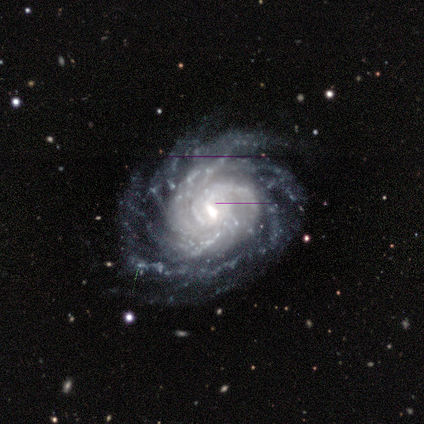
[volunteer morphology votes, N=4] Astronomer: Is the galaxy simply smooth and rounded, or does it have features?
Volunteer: featured or disk — 100%.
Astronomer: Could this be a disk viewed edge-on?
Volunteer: yes — 50%, tied with no at 50%.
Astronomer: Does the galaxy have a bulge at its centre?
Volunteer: boxy — 50%, tied with rounded at 50%.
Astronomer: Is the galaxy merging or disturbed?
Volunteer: none — 75%.